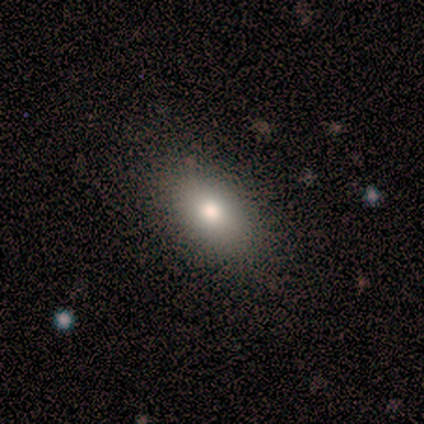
Smooth or featured: smooth — 86% (featured or disk — 10%)
How rounded: in between — 89% (round — 8%)
Merging: none — 92% (minor disturbance — 8%)